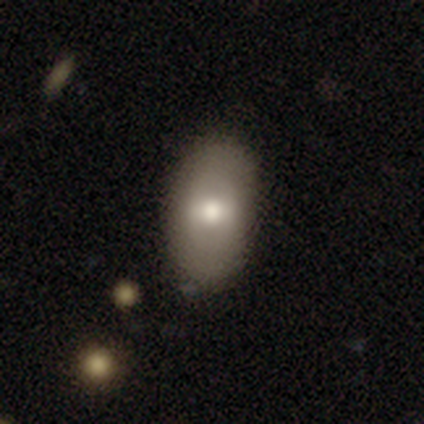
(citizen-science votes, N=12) This appears to be a smooth galaxy with no disk features (58%) that is in between round and cigar-shaped (100%). Merging: none (91%).